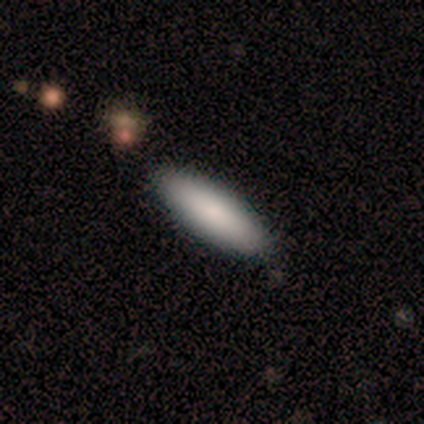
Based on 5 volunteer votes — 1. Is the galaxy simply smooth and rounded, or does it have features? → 80% smooth, 20% star or artifact, 0% featured or disk.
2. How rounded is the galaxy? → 75% cigar-shaped, 25% in between, 0% round.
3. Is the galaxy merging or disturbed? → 75% none, 25% minor disturbance, 0% major disturbance, 0% merger.